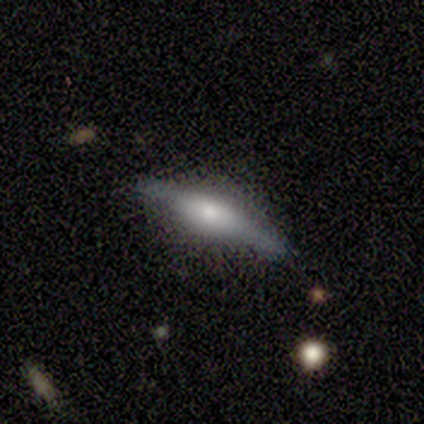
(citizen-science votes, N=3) Smooth or featured?
  - featured or disk: 67% *
  - smooth: 33%
  - star or artifact: 0%
Edge-on disk?
  - yes: 100% *
  - no: 0%
Edge-on bulge?
  - rounded: 100% *
  - boxy: 0%
  - none: 0%
Merging?
  - none: 67% *
  - minor disturbance: 33%
  - major disturbance: 0%
  - merger: 0%